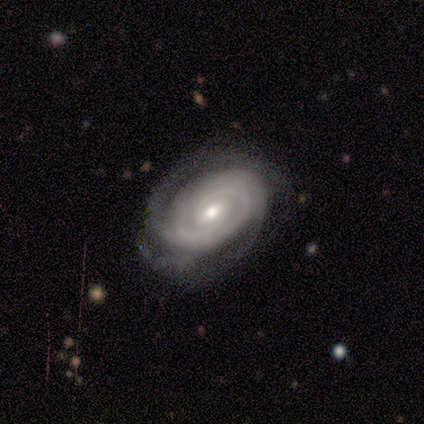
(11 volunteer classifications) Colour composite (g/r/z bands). It shows a featured or disk galaxy (73%) with a weak bar (75%), 2 (62%) tight (100%) spiral arms (100%) and a moderate central bulge (50%, tied with small). Merging: none (82%).